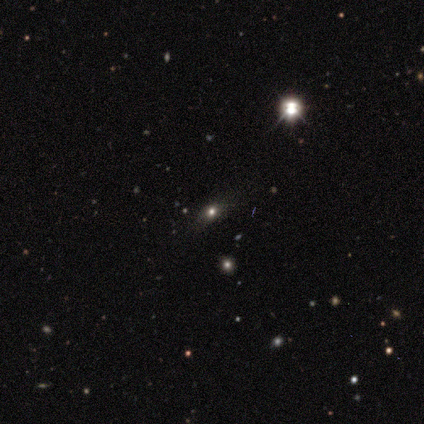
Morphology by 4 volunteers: smooth-or-featured: star or artifact: 75% | smooth: 25% | featured or disk: 0%